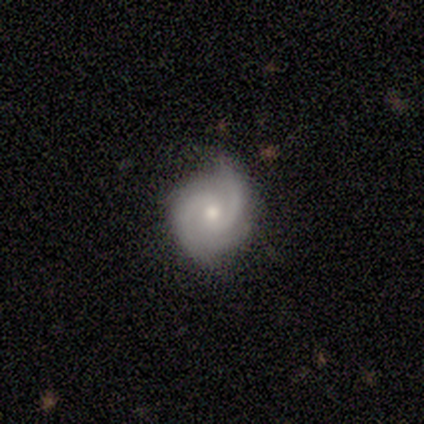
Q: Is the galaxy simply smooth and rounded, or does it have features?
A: featured or disk — 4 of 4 (100%).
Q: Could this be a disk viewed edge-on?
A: no — 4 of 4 (100%).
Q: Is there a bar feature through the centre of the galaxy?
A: weak — 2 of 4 (50%).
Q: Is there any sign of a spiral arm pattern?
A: yes — 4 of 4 (100%).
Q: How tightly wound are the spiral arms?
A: tight — 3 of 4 (75%).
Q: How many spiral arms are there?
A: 2 — 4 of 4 (100%).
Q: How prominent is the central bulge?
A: moderate — 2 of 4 (50%, tied with small).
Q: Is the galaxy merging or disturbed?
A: none — 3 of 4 (75%).